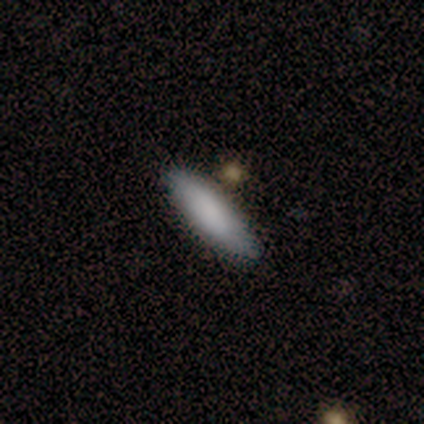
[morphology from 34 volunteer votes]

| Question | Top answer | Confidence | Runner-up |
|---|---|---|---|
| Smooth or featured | smooth | 94% | featured or disk (3%) |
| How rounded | cigar-shaped | 66% | in between (34%) |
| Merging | none | 82% | minor disturbance (12%) |